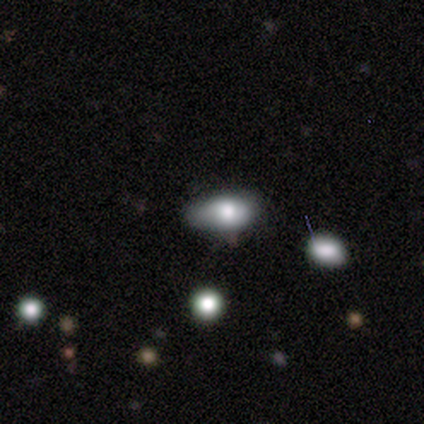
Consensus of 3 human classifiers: Q: Smooth or featured?
A: smooth (67%); runner-up: star or artifact (33%)
Q: How rounded?
A: in between (100%)
Q: Merging?
A: minor disturbance (100%)